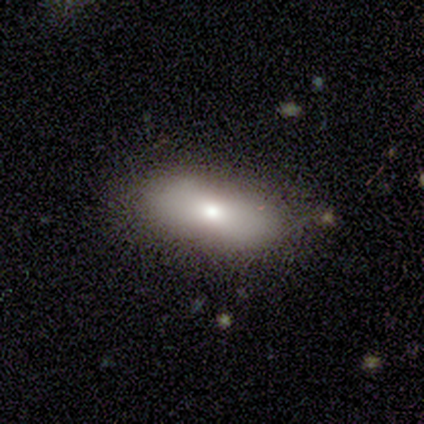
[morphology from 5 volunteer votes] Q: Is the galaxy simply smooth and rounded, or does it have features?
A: smooth — 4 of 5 (80%).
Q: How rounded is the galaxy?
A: in between — 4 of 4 (100%).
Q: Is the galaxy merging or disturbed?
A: none — 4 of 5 (80%).